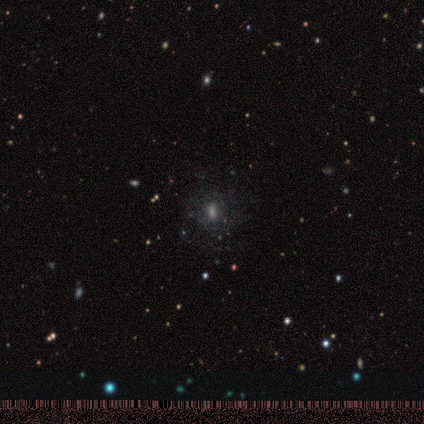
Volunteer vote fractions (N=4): This appears to be a smooth galaxy with no disk features (50%) that is in between round and cigar-shaped (100%). Merging: none (100%).